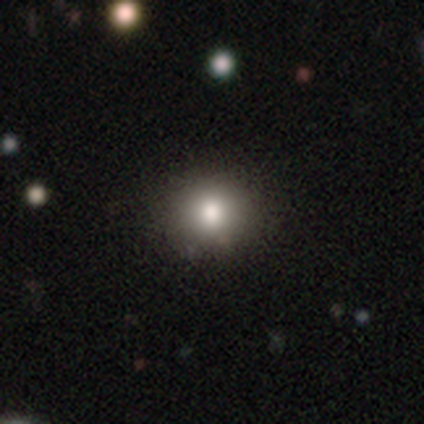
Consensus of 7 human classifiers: Q: Smooth or featured?
A: smooth (100%)
Q: How rounded?
A: round (86%); runner-up: in between (14%)
Q: Merging?
A: none (71%); runner-up: minor disturbance (29%)